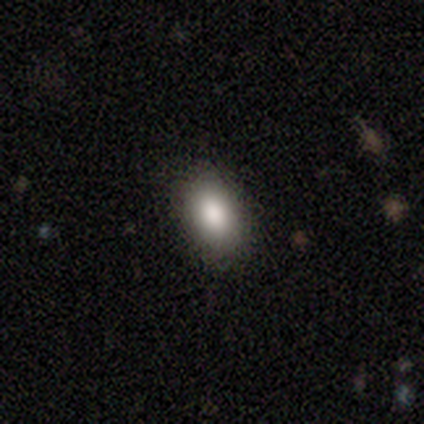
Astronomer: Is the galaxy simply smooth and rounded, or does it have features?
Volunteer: smooth — 78%.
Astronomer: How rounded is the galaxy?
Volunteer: in between — 100%.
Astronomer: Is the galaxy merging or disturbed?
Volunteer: none — 100%.